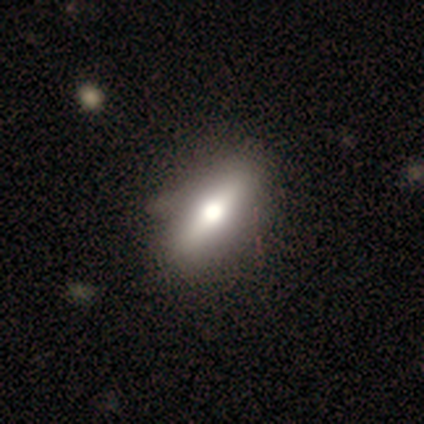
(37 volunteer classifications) This appears to be a smooth galaxy with no disk features (73%) that is in between round and cigar-shaped (52%). Merging: none (57%).